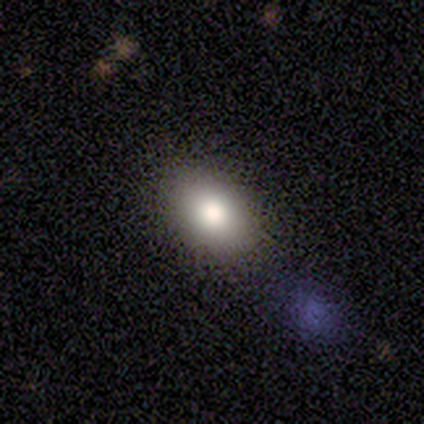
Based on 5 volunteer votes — A smooth galaxy with no disk features (80%) that is in between round and cigar-shaped (100%).

Vote fractions:
- Smooth or featured? smooth: 80% / featured or disk: 20% / star or artifact: 0%
- How rounded? in between: 100% / round: 0% / cigar-shaped: 0%
- Merging? none: 100% / minor disturbance: 0% / major disturbance: 0% / merger: 0%